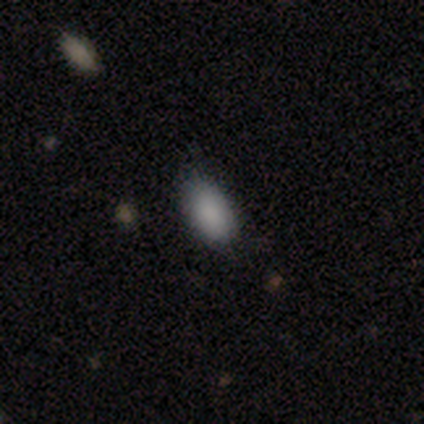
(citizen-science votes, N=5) A smooth galaxy with no disk features (80%) that is in between round and cigar-shaped (100%). Merging: none (80%).